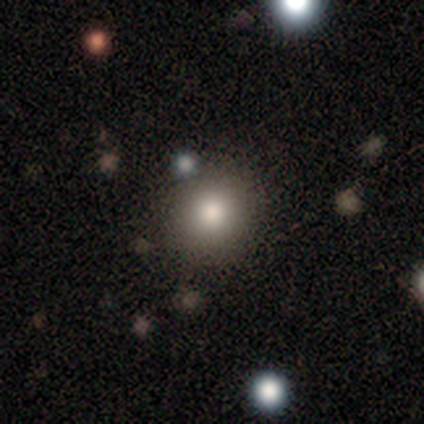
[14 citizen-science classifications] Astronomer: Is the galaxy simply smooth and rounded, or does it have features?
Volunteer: smooth — 57%.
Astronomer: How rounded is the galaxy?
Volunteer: round — 88%.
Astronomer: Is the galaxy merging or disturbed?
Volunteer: none — 80%.